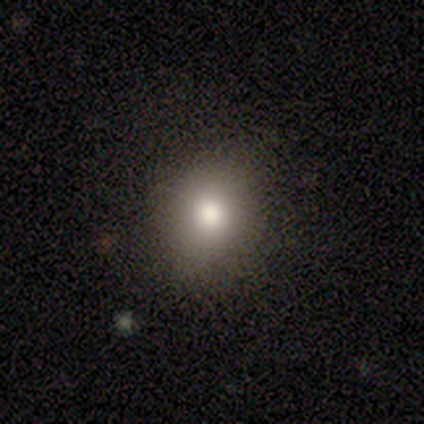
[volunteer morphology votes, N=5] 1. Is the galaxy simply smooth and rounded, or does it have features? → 100% smooth, 0% featured or disk, 0% star or artifact.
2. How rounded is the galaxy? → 60% round, 40% in between, 0% cigar-shaped.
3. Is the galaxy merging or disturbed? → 80% none, 20% minor disturbance, 0% major disturbance, 0% merger.